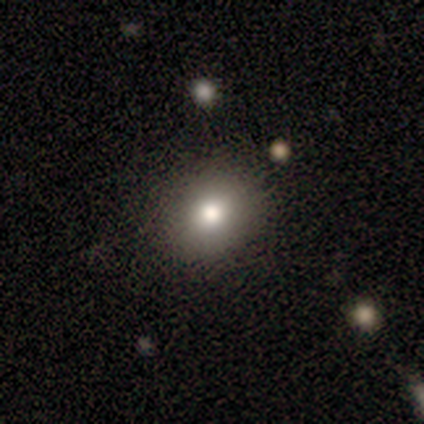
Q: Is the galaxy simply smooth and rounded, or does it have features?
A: smooth — 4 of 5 (80%).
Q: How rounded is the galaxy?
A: round — 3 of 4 (75%).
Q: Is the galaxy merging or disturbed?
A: none — 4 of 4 (100%).